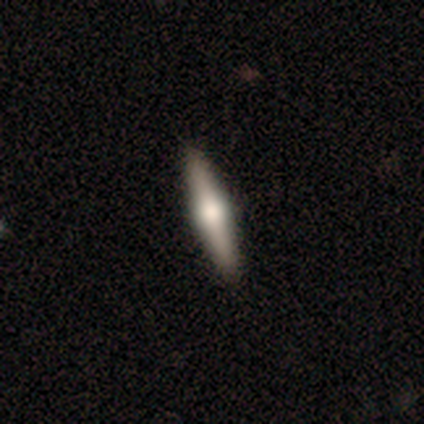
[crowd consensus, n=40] Smooth or featured? 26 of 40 (65%) said featured or disk. Edge-on disk? 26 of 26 (100%) said yes. Edge-on bulge? 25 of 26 (96%) said rounded. Merging? 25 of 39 (64%) said none.